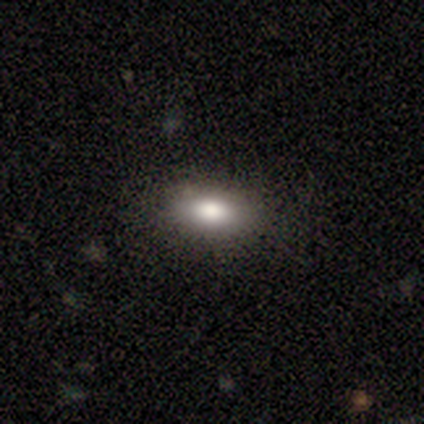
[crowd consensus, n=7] This appears to be a smooth galaxy with no disk features (57%) that is in between round and cigar-shaped (100%). Merging: none (67%).